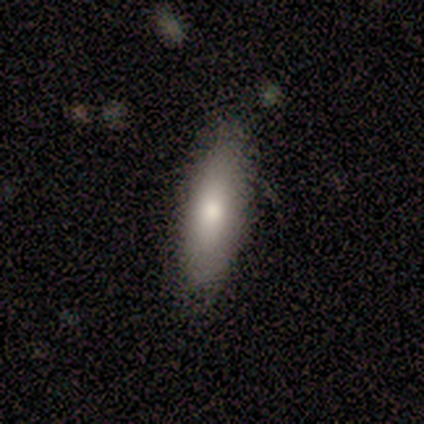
Smooth or featured?
  - smooth: 86% *
  - featured or disk: 14%
  - star or artifact: 0%
How rounded?
  - in between: 58% *
  - cigar-shaped: 42%
  - round: 0%
Merging?
  - none: 86% *
  - minor disturbance: 7%
  - major disturbance: 7%
  - merger: 0%